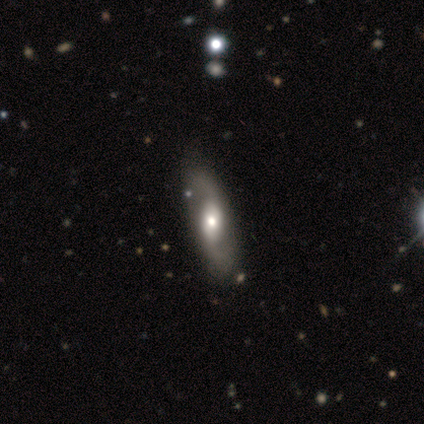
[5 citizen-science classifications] A featured or disk galaxy (100%) with no bar (80%), 2 (100%) loose (80%) spiral arms (100%) and a moderate central bulge (40%, tied with small). Merging: none (100%).